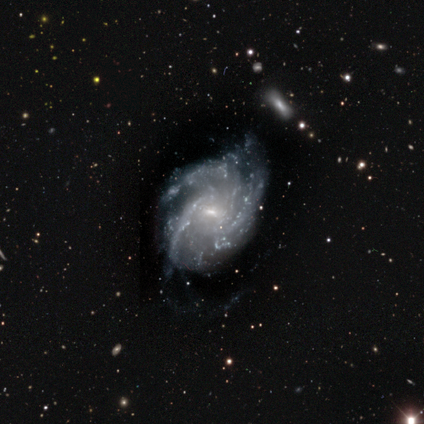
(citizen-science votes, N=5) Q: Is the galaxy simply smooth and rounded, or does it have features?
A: featured or disk — 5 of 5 (100%).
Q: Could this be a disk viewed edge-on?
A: no — 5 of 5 (100%).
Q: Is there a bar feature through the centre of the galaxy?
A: strong — 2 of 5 (40%, tied with weak).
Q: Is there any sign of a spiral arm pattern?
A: yes — 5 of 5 (100%).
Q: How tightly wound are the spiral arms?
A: tight — 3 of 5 (60%).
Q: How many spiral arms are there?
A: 3 — 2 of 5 (40%, tied with more than 4).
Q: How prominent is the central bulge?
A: small — 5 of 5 (100%).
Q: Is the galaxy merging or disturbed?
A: none — 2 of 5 (40%, tied with minor disturbance).